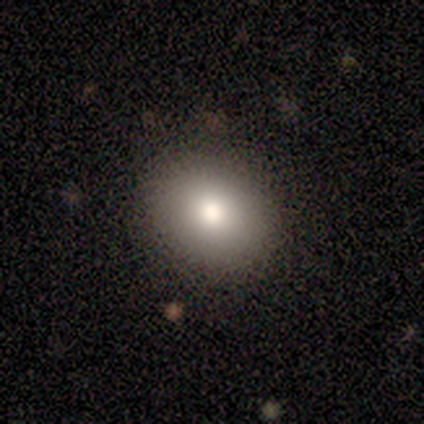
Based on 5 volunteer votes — This appears to be a smooth galaxy with no disk features (80%) that is round (50%, tied with in between). Merging: none (100%).